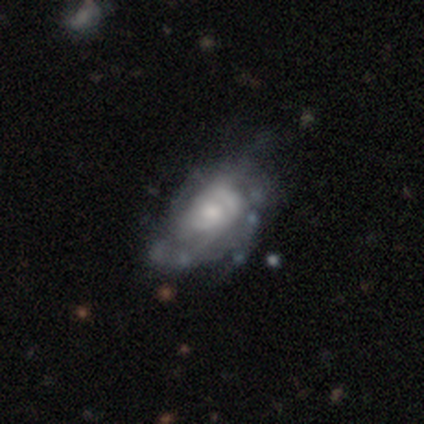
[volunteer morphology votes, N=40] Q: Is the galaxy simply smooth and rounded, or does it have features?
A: featured or disk — 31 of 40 (78%).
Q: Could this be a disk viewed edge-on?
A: no — 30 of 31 (97%).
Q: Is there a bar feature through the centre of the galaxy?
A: no — 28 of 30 (93%).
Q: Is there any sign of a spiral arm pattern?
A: yes — 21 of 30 (70%).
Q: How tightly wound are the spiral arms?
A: medium — 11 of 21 (52%).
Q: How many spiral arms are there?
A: can't tell — 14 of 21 (67%).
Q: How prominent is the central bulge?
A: moderate — 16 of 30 (53%).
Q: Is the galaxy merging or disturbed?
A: none — 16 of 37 (43%).